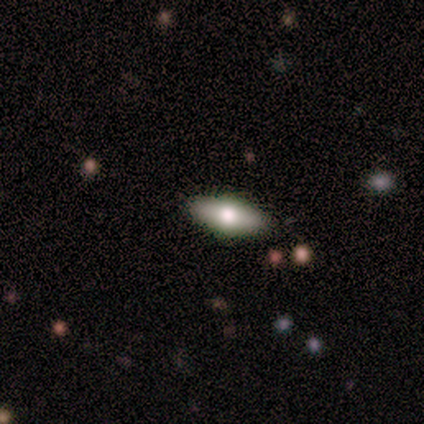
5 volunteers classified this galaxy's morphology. Smooth or featured? 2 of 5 (40%, tied with featured or disk) said smooth. How rounded? 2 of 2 (100%) said in between. Merging? 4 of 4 (100%) said none.